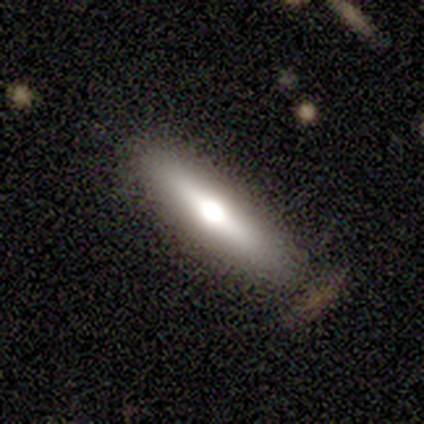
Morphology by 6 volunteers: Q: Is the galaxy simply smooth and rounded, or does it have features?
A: smooth — 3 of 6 (50%, tied with featured or disk).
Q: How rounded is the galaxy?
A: cigar-shaped — 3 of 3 (100%).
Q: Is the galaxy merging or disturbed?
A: none — 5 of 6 (83%).